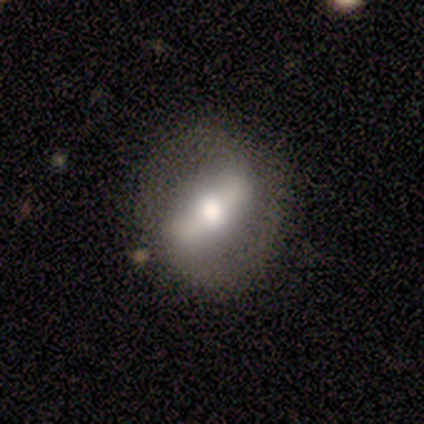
featured or disk 64%, smooth 36%, star or artifact 0%. Down the decision tree: edge-on disk — no (100%); bar — strong (86%); spiral arms — yes (57%); spiral arm count — 2 (100%); spiral winding — medium (50%, tied with loose); bulge size — large (57%); merging — none (73%).